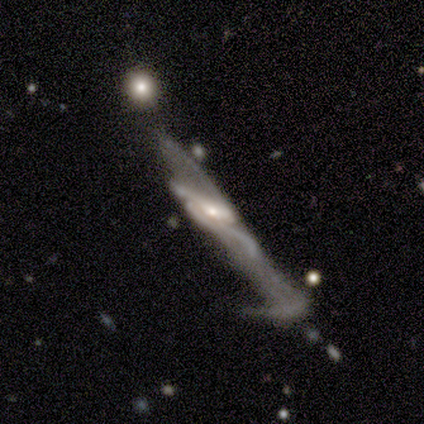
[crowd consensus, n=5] Q: Smooth or featured?
A: featured or disk (100%)
Q: Edge-on disk?
A: no (100%)
Q: Bar?
A: no (60%); runner-up: strong (20%)
Q: Spiral arms?
A: yes (60%); runner-up: no (40%)
Q: Spiral winding?
A: loose (100%)
Q: Spiral arm count?
A: can't tell (67%); runner-up: 2 (33%)
Q: Bulge size?
A: moderate (80%); runner-up: small (20%)
Q: Merging?
A: major disturbance (80%); runner-up: merger (20%)